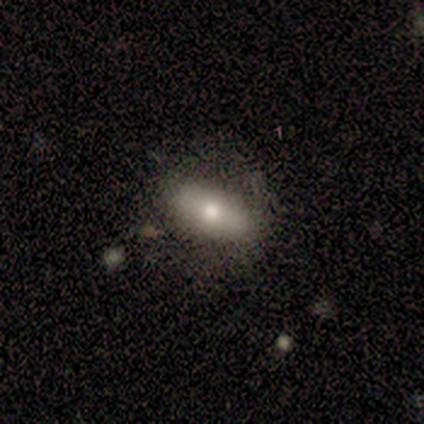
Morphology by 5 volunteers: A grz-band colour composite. It shows a smooth galaxy with no disk features (80%) that is in between round and cigar-shaped (100%). Merging: none (60%).